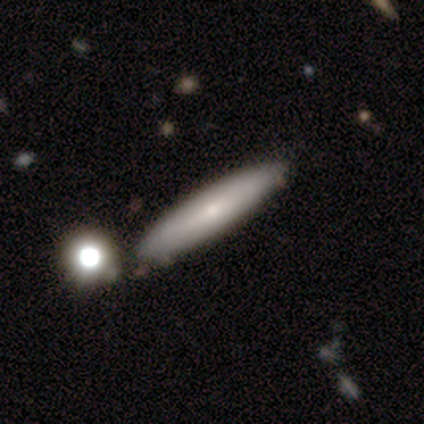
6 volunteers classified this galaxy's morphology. Smooth or featured?
  - smooth: 67% *
  - featured or disk: 33%
  - star or artifact: 0%
How rounded?
  - cigar-shaped: 75% *
  - in between: 25%
  - round: 0%
Merging?
  - none: 67% *
  - minor disturbance: 17%
  - merger: 17%
  - major disturbance: 0%